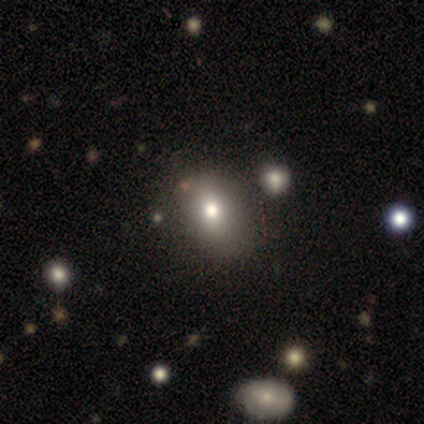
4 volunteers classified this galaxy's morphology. smooth 75%, featured or disk 25%, star or artifact 0%. Down the decision tree: how rounded — in between (67%); merging — none (100%).